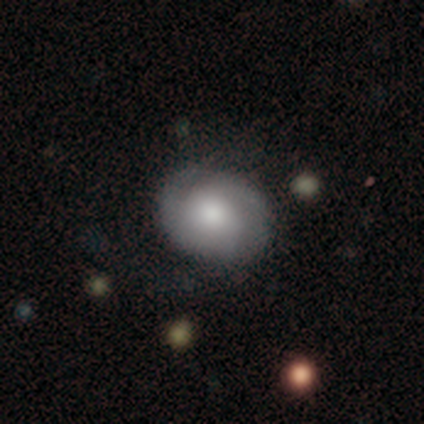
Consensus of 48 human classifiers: A featured or disk galaxy (52%) with no bar (88%), 2 (57%) tight (52%) spiral arms (84%) and a moderate central bulge (60%).

Vote fractions:
- Smooth or featured? featured or disk: 52% / smooth: 48% / star or artifact: 0%
- Edge-on disk? no: 100% / yes: 0%
- Bar? no: 88% / weak: 12% / strong: 0%
- Spiral arms? yes: 84% / no: 16%
- Spiral winding? tight: 52% / medium: 29% / loose: 19%
- Spiral arm count? 2: 57% / 3: 19% / can't tell: 19% / 1: 5% / 4: 0% / more than 4: 0%
- Bulge size? moderate: 60% / large: 20% / small: 16% / dominant: 4% / none: 0%
- Merging? none: 83% / minor disturbance: 8% / major disturbance: 8% / merger: 0%